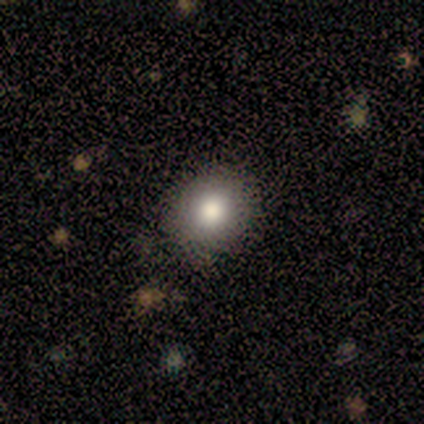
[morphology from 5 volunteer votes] Smooth or featured?
  - smooth: 100% *
  - featured or disk: 0%
  - star or artifact: 0%
How rounded?
  - round: 80% *
  - in between: 20%
  - cigar-shaped: 0%
Merging?
  - none: 80% *
  - minor disturbance: 20%
  - major disturbance: 0%
  - merger: 0%